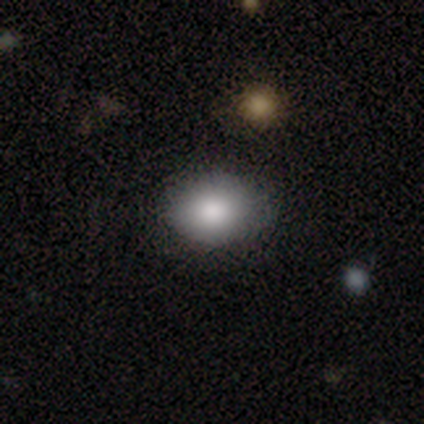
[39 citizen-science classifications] Smooth or featured: smooth — 82% (featured or disk — 13%)
How rounded: in between — 59% (round — 41%)
Merging: none — 73% (minor disturbance — 16%)